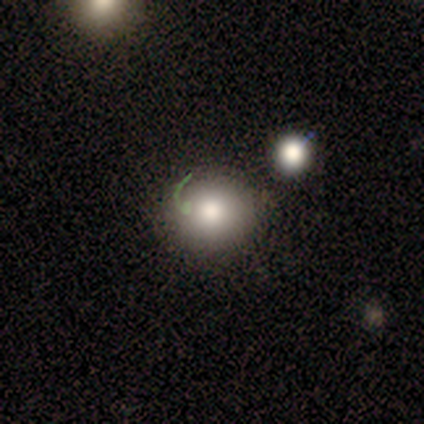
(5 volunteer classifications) A smooth galaxy with no disk features (80%) that is round (75%).

Vote fractions:
- Smooth or featured? smooth: 80% / featured or disk: 20% / star or artifact: 0%
- How rounded? round: 75% / in between: 25% / cigar-shaped: 0%
- Merging? none: 100% / minor disturbance: 0% / major disturbance: 0% / merger: 0%